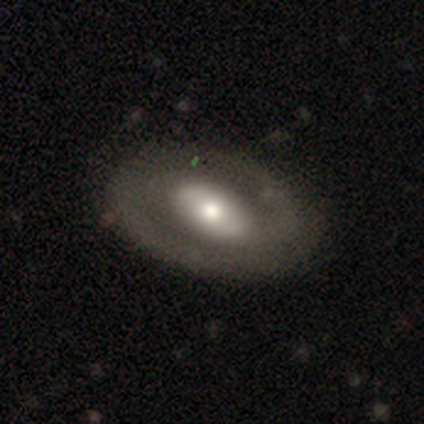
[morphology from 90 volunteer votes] Smooth or featured?
  - featured or disk: 69% *
  - smooth: 30%
  - star or artifact: 1%
Edge-on disk?
  - no: 87% *
  - yes: 13%
Bar?
  - no: 37% *
  - weak: 35%
  - strong: 28%
Spiral arms?
  - yes: 61% *
  - no: 39%
Spiral winding?
  - medium: 48% *
  - loose: 27%
  - tight: 24%
Spiral arm count?
  - 2: 88% *
  - can't tell: 6%
  - 1: 3%
  - 3: 3%
  - 4: 0%
  - more than 4: 0%
Bulge size?
  - moderate: 50% *
  - large: 28%
  - small: 22%
  - dominant: 0%
  - none: 0%
Merging?
  - none: 78% *
  - minor disturbance: 15%
  - major disturbance: 8%
  - merger: 0%